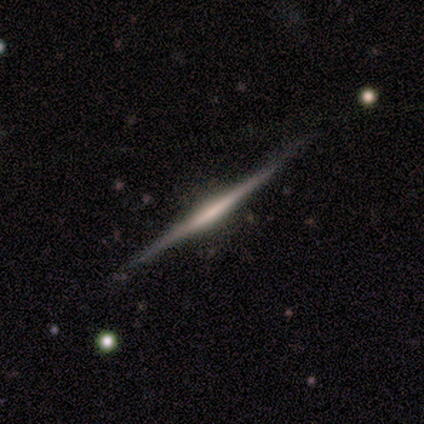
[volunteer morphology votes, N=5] Smooth or featured: featured or disk — 60% (smooth — 20%)
Edge-on disk: yes — 100%
Edge-on bulge: none — 67% (rounded — 33%)
Merging: none — 100%